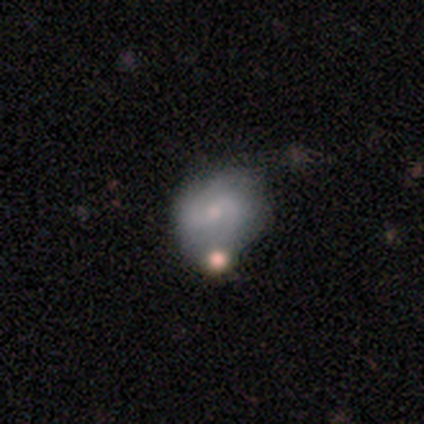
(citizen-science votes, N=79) featured or disk 59%, smooth 34%, star or artifact 6%. Down the decision tree: edge-on disk — no (94%); bar — no (55%); spiral arms — yes (77%); spiral arm count — 2 (82%); spiral winding — medium (47%); bulge size — small (64%); merging — merger (28%).